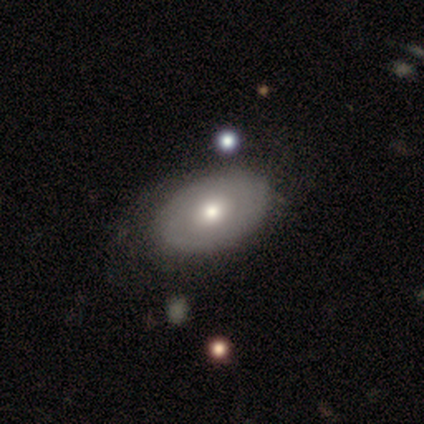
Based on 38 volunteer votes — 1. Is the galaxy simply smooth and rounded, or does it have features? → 50% smooth, 47% featured or disk, 3% star or artifact.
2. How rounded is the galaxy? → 79% in between, 21% round, 0% cigar-shaped.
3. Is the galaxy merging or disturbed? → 62% none, 8% minor disturbance, 3% major disturbance, 3% merger.